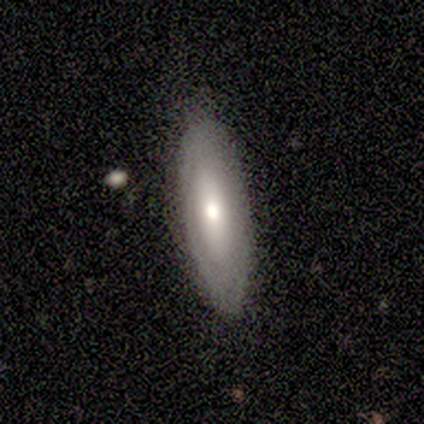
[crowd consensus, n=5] Smooth or featured: featured or disk — 60% (smooth — 40%)
Edge-on disk: yes — 67% (no — 33%)
Edge-on bulge: rounded — 100%
Merging: none — 60% (minor disturbance — 40%)